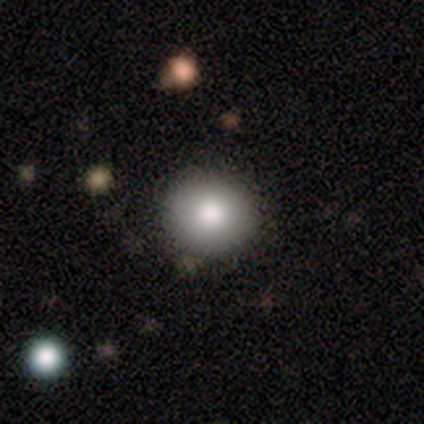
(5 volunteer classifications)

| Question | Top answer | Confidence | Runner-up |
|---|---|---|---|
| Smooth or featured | smooth | 80% | star or artifact (20%) |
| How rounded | round | 50% | tied: in between (50%) |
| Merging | none | 75% | minor disturbance (25%) |